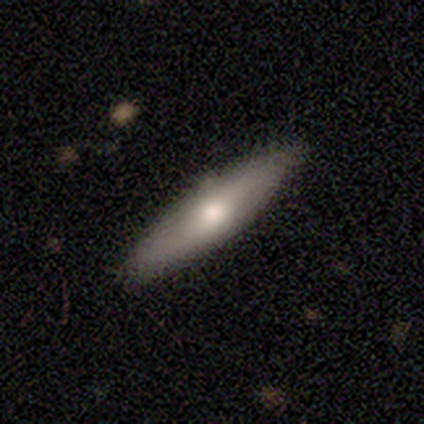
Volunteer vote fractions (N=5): Smooth or featured?
  - smooth: 60% *
  - featured or disk: 40%
  - star or artifact: 0%
How rounded?
  - cigar-shaped: 67% *
  - in between: 33%
  - round: 0%
Merging?
  - none: 60% *
  - minor disturbance: 40%
  - major disturbance: 0%
  - merger: 0%